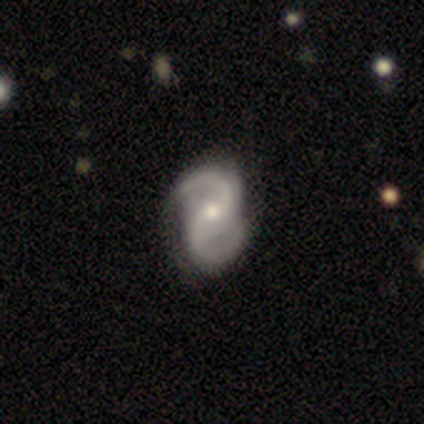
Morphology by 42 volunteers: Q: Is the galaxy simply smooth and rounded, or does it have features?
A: featured or disk — 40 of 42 (95%).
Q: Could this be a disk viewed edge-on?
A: no — 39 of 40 (98%).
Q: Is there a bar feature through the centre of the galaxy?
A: weak — 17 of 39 (44%).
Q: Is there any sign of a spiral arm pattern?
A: yes — 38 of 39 (97%).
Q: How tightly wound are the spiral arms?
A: medium — 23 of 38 (61%).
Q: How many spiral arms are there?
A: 2 — 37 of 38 (97%).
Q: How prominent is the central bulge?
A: moderate — 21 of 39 (54%).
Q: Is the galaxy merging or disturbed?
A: none — 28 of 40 (70%).